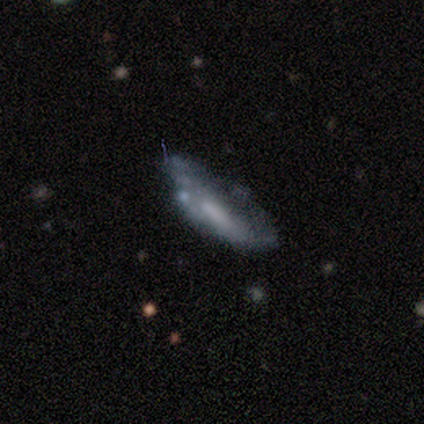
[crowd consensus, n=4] This is likely a smooth galaxy (75%). How rounded: clearly cigar-shaped (100%). Merging: possibly major disturbance (50%).